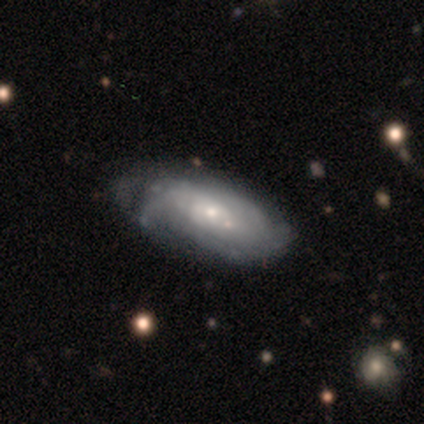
A featured or disk galaxy (88%) with no bar (86%), medium (50%) spiral arms (86%) and a moderate central bulge (57%). Merging: none (75%).